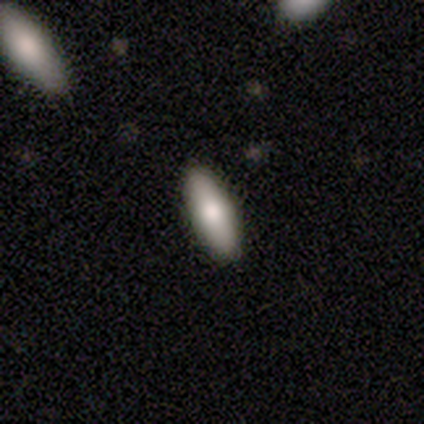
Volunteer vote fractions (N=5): This appears to be a smooth galaxy with no disk features (60%) that is in between round and cigar-shaped (67%). Merging: none (100%).